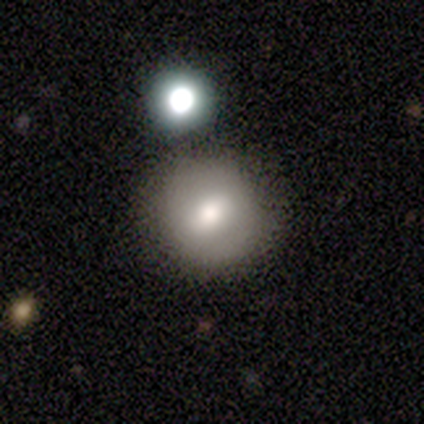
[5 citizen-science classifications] smooth_or_featured: smooth (p=0.80) [alt: star or artifact p=0.20]
how_rounded: round (p=1.00)
merging: none (p=0.75) [alt: major disturbance p=0.25]